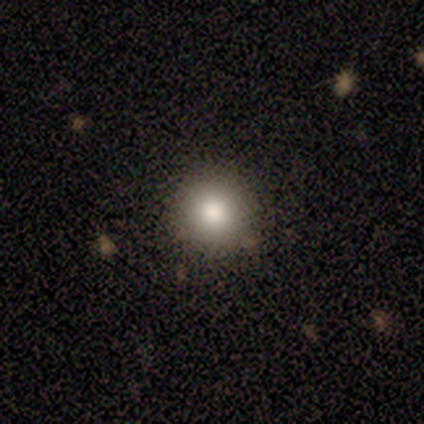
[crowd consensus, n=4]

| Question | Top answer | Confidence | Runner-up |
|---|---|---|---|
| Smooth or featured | smooth | 75% | featured or disk (25%) |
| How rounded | round | 100% | — |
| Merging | none | 100% | — |